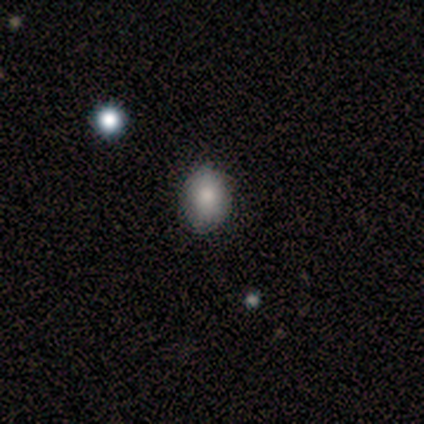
A smooth galaxy with no disk features (60%) that is round (67%). Merging: minor disturbance (67%).